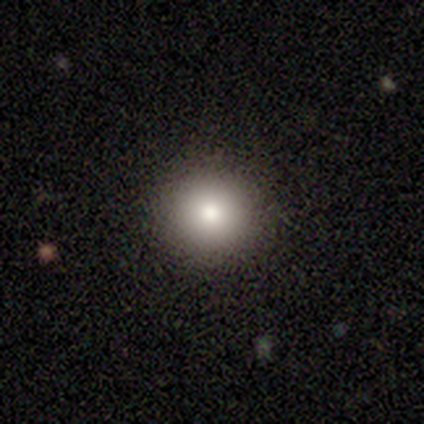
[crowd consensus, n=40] smooth 82%, featured or disk 10%, star or artifact 8%. Down the decision tree: how rounded — round (91%); merging — none (89%).